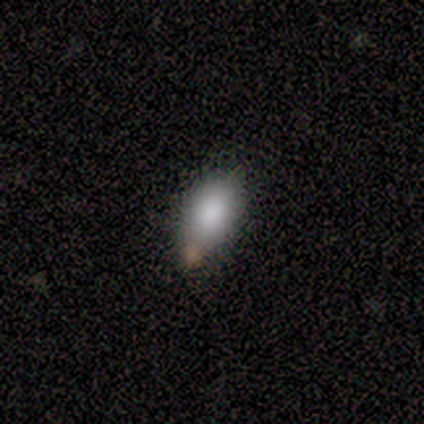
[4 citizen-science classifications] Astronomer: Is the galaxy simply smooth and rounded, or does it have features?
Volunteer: smooth — 100%.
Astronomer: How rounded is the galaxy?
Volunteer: in between — 100%.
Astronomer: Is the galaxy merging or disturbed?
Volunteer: merger — 50%.